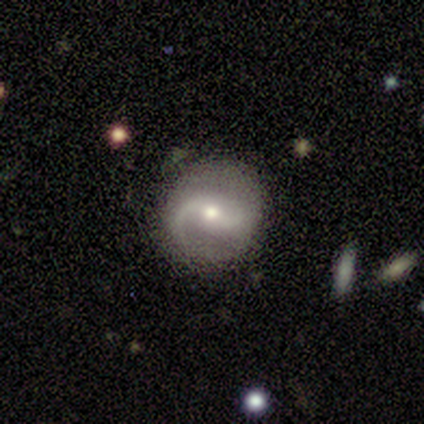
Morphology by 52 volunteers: Smooth or featured? featured or disk (83%)
Edge-on disk? no (98%)
Bar? weak (50%)
Spiral arms? yes (93%)
Spiral winding? medium (46%, tied with loose)
Spiral arm count? 2 (87%)
Bulge size? moderate (52%)
Merging? none (84%)